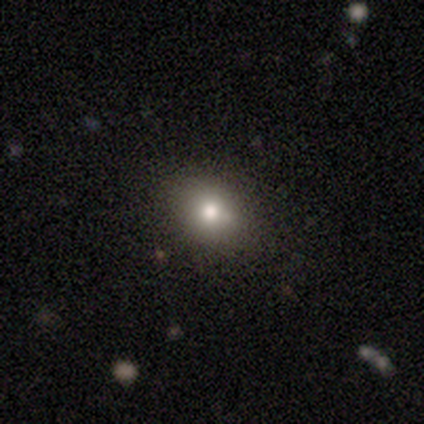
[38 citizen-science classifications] Smooth or featured: smooth — 79% (star or artifact — 13%)
How rounded: in between — 57% (round — 43%)
Merging: none — 91% (merger — 6%)